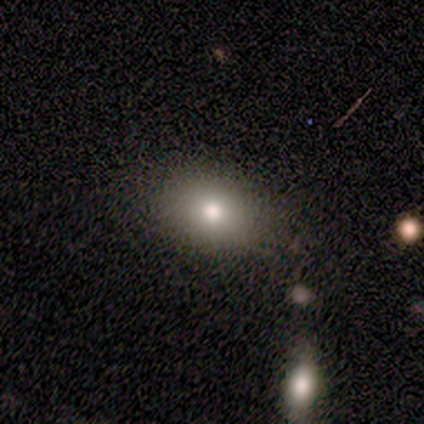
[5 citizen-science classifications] Overall: smooth (100%). How rounded: in between (100%). Merging: none (100%).